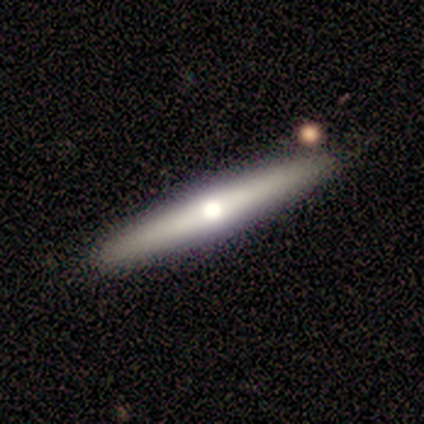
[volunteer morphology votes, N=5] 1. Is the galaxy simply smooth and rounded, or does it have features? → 60% smooth, 40% featured or disk, 0% star or artifact.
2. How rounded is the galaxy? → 100% cigar-shaped, 0% round, 0% in between.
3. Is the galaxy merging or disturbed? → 100% none, 0% minor disturbance, 0% major disturbance, 0% merger.